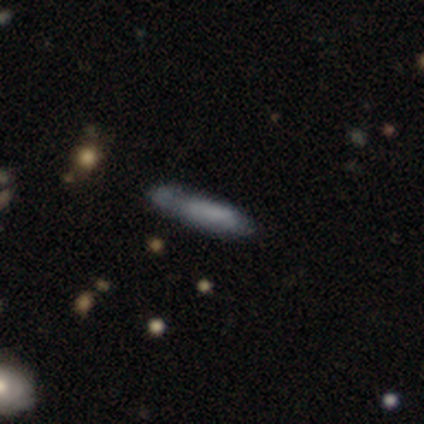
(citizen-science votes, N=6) Smooth or featured? smooth (67%)
How rounded? in between (50%, tied with cigar-shaped)
Merging? minor disturbance (50%)